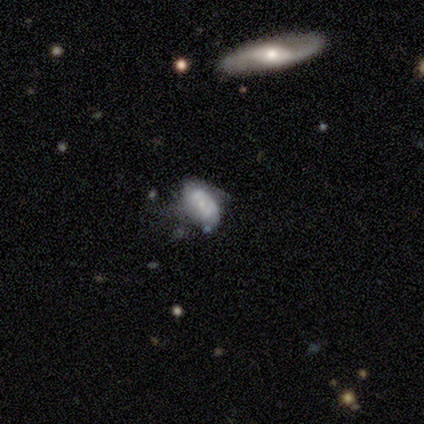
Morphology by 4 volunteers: type=smooth (75%); roundness=in between (100%); merging=none (75%).